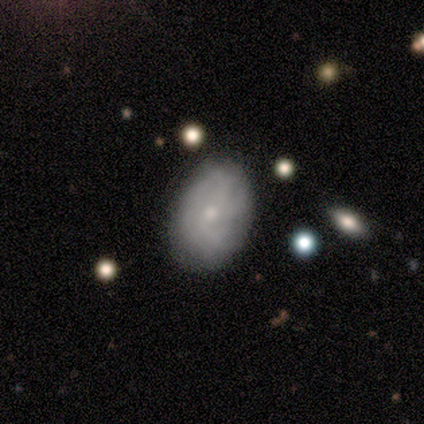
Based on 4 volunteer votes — Overall: star or artifact (50%; smooth 25%).